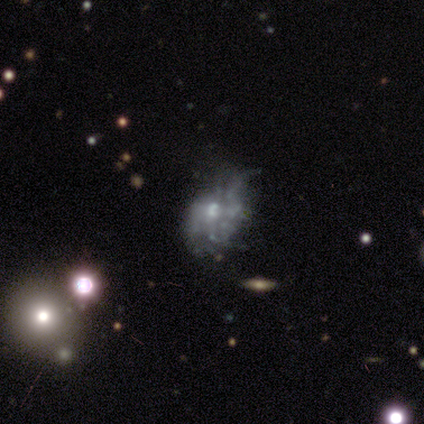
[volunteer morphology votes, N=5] Smooth or featured?
  - featured or disk: 80% *
  - smooth: 20%
  - star or artifact: 0%
Edge-on disk?
  - no: 100% *
  - yes: 0%
Bar?
  - no: 100% *
  - strong: 0%
  - weak: 0%
Spiral arms?
  - no: 100% *
  - yes: 0%
Bulge size?
  - moderate: 50% *
  - small: 25%
  - none: 25%
  - dominant: 0%
  - large: 0%
Merging?
  - minor disturbance: 40% * (tied)
  - major disturbance: 40% * (tied)
  - none: 20%
  - merger: 0%